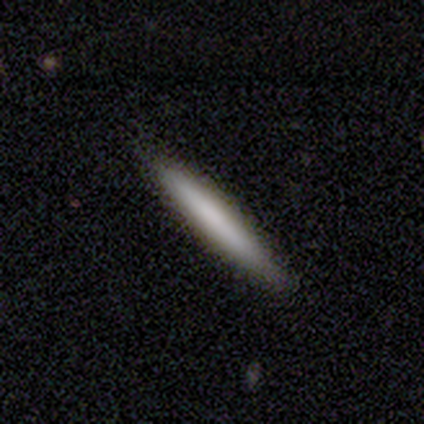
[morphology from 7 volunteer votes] type=smooth (86%); roundness=cigar-shaped (100%); merging=none (86%).